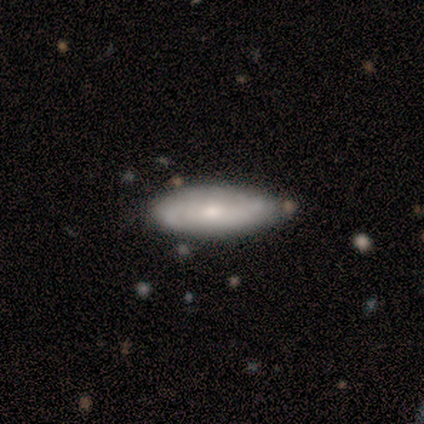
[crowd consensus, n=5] Morphology: type=smooth (60%); roundness=cigar-shaped (67%); merging=none (40%, tied with minor disturbance).